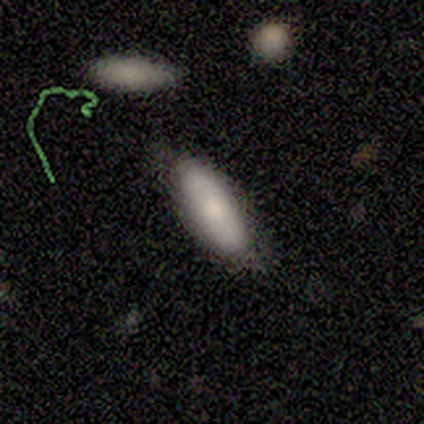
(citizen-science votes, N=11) Smooth or featured?
  - smooth: 55% *
  - featured or disk: 27%
  - star or artifact: 18%
How rounded?
  - in between: 67% *
  - cigar-shaped: 33%
  - round: 0%
Merging?
  - none: 44% * (tied)
  - minor disturbance: 44% * (tied)
  - major disturbance: 11%
  - merger: 0%